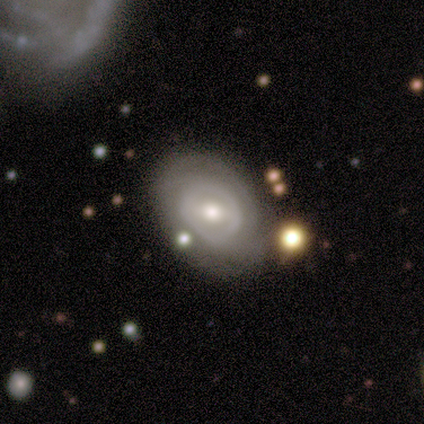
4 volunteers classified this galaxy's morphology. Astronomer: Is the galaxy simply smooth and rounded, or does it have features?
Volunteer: featured or disk — 75%.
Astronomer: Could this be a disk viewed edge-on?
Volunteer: no — 100%.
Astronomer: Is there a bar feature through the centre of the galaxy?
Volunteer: strong — 33%, tied with weak and no at 33%.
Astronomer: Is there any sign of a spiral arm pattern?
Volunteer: no — 100%.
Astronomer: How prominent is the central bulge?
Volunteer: moderate — 100%.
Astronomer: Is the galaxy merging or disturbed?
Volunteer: none — 100%.